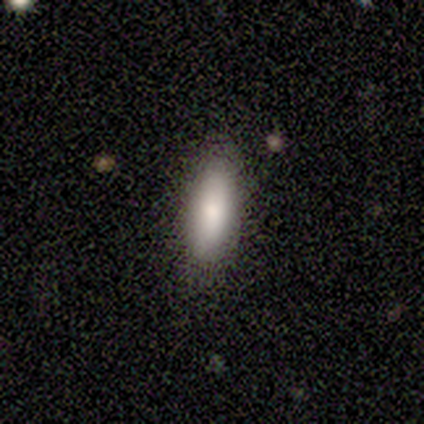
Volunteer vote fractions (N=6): smooth-or-featured: smooth: 50% | featured or disk: 33% | star or artifact: 17%
  how-rounded: in between: 67% | cigar-shaped: 33% | round: 0%
  merging: none: 100% | minor disturbance: 0% | major disturbance: 0% | merger: 0%